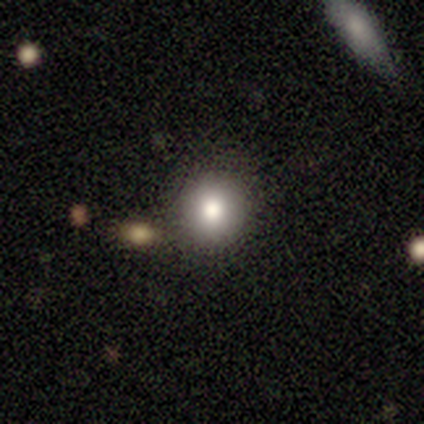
Overall: smooth (100%). How rounded: round (100%). Merging: none (60%; minor disturbance 20%).